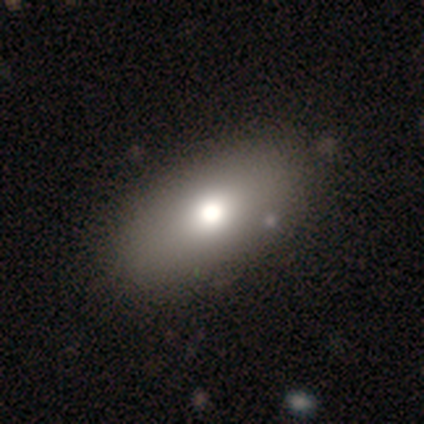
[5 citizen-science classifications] Smooth or featured? 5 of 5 (100%) said smooth. How rounded? 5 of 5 (100%) said in between. Merging? 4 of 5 (80%) said none.